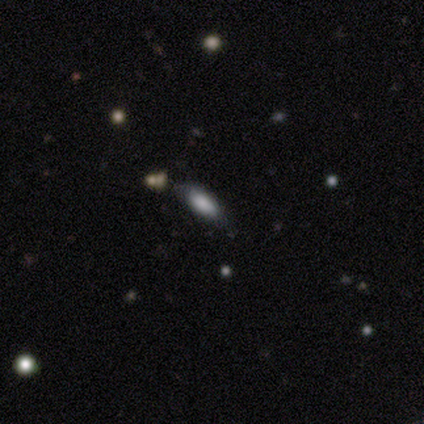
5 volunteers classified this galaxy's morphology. smooth 60%, featured or disk 20%, star or artifact 20%. Down the decision tree: how rounded — in between (67%); merging — none (100%).